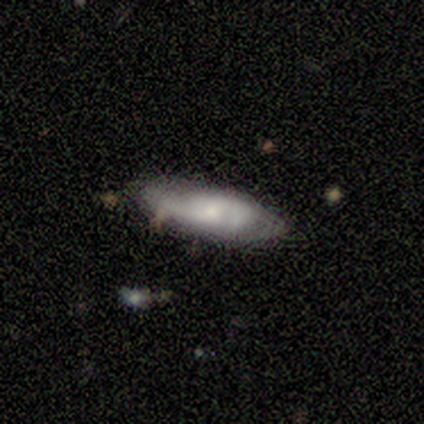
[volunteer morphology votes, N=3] A smooth galaxy with no disk features (33%, tied with featured or disk and star or artifact) that is cigar-shaped (100%).

Vote fractions:
- Smooth or featured? smooth: 33% (tied) / featured or disk: 33% (tied) / star or artifact: 33% (tied)
- How rounded? cigar-shaped: 100% / round: 0% / in between: 0%
- Merging? none: 100% / minor disturbance: 0% / major disturbance: 0% / merger: 0%